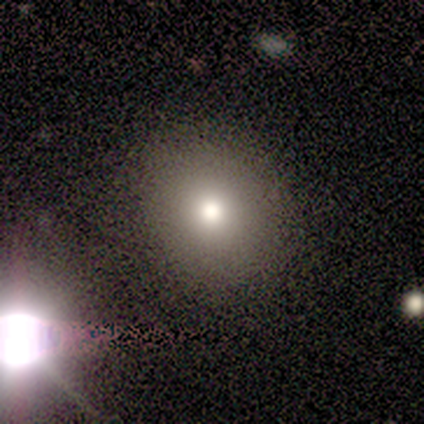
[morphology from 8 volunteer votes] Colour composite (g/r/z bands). It shows a smooth galaxy with no disk features (75%) that is round (67%). Merging: none (88%).